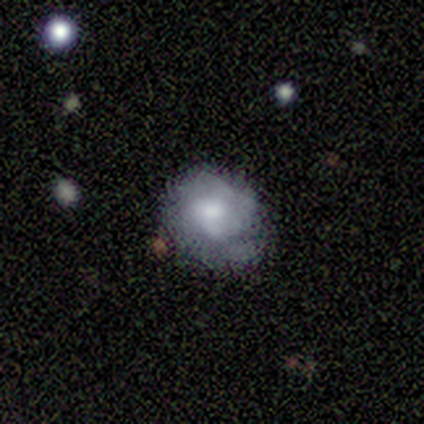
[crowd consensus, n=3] Smooth or featured? 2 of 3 (67%) said featured or disk. Edge-on disk? 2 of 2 (100%) said no. Bar? 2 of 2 (100%) said no. Spiral arms? 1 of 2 (50%, tied with no) said yes. Spiral winding? 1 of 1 (100%) said tight. Spiral arm count? 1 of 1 (100%) said can't tell. Bulge size? 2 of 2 (100%) said moderate. Merging? 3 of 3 (100%) said none.